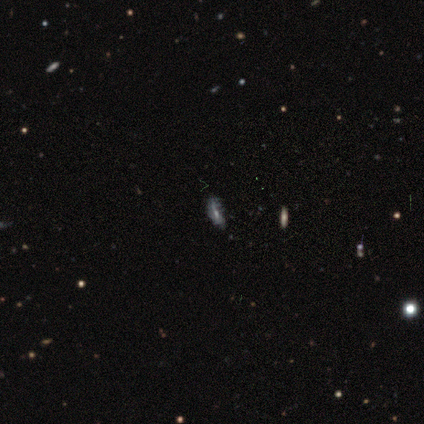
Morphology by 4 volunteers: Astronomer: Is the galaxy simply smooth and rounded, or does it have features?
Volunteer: smooth — 50%.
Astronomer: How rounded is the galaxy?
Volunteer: in between — 50%, tied with cigar-shaped at 50%.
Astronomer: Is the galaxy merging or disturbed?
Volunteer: none — 67%.